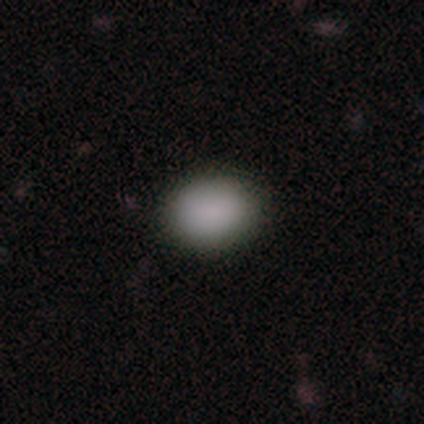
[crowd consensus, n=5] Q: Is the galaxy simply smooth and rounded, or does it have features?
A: smooth — 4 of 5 (80%).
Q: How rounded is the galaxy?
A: in between — 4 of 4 (100%).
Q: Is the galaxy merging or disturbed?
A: none — 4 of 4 (100%).